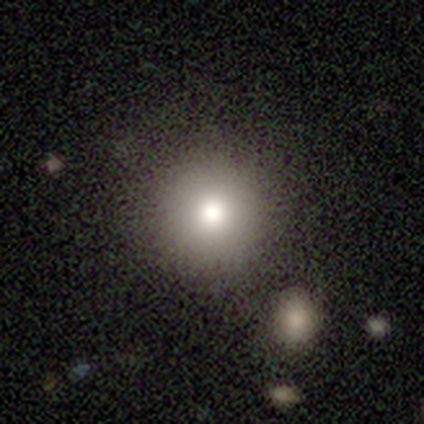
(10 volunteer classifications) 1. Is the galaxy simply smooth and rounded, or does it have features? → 90% smooth, 10% star or artifact, 0% featured or disk.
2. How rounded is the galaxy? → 100% round, 0% in between, 0% cigar-shaped.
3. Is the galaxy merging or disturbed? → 89% none, 11% minor disturbance, 0% major disturbance, 0% merger.